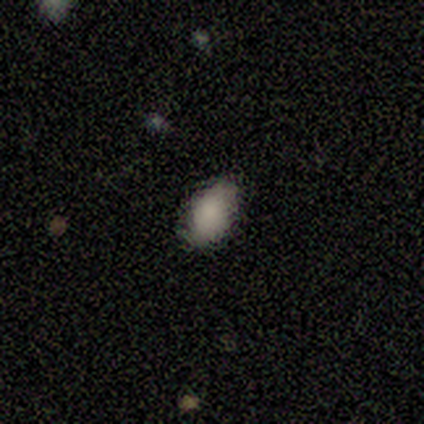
Morphology: type=smooth (100%); roundness=in between (80%); merging=none (80%).